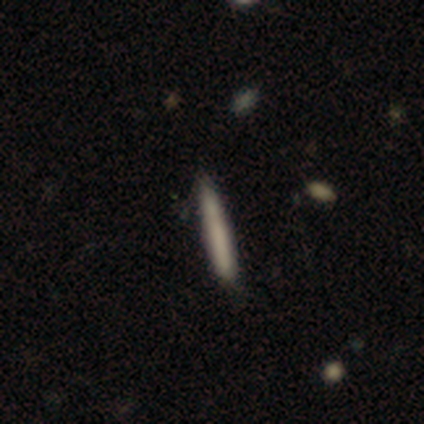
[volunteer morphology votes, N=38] smooth_or_featured: smooth (p=0.76) [alt: featured or disk p=0.18]
how_rounded: cigar-shaped (p=1.00)
merging: none (p=0.81) [alt: minor disturbance p=0.17]